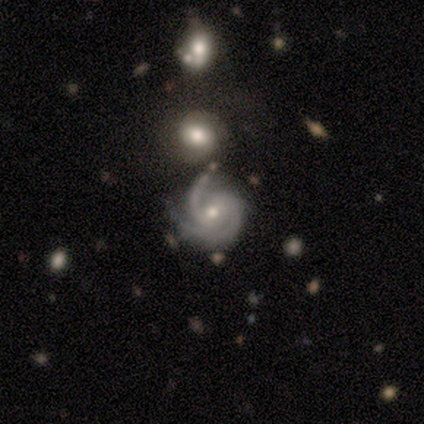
This appears to be a featured or disk galaxy (100%) with a weak bar (60%), 2 (60%) medium (40%, tied with loose) spiral arms (100%) and a moderate central bulge (60%). Merging: none (80%).